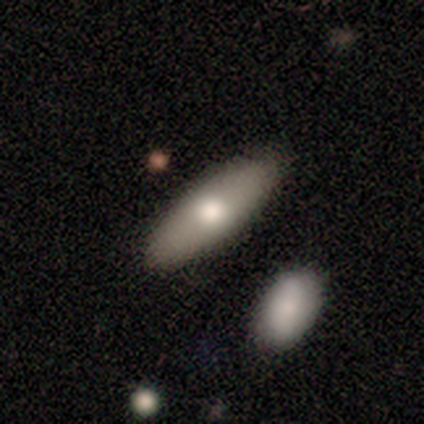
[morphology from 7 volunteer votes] type=smooth (71%); roundness=in between (40%, tied with cigar-shaped); merging=none (86%).